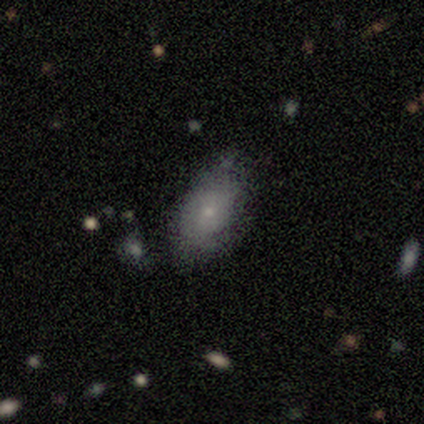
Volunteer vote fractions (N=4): smooth-or-featured: smooth: 75% | star or artifact: 25% | featured or disk: 0%
  how-rounded: in between: 100% | round: 0% | cigar-shaped: 0%
  merging: none: 100% | minor disturbance: 0% | major disturbance: 0% | merger: 0%